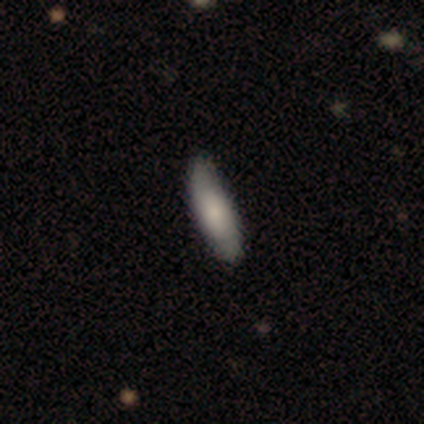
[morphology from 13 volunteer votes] Smooth or featured? 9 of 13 (69%) said smooth. How rounded? 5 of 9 (56%) said in between. Merging? 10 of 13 (77%) said none.